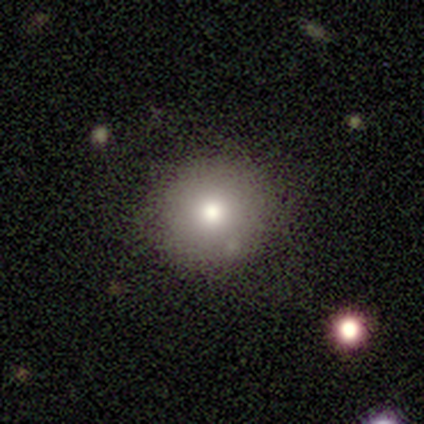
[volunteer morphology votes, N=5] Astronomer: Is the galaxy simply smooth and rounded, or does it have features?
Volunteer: smooth — 80%.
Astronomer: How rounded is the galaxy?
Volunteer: round — 100%.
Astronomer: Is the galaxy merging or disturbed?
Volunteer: none — 100%.